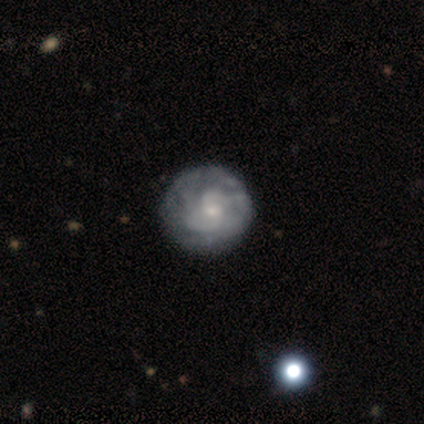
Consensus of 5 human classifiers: smooth-or-featured: featured or disk: 80% | star or artifact: 20% | smooth: 0%
  disk-edge-on: no: 100% | yes: 0%
    bar: weak: 50% (tied) | no: 50% (tied) | strong: 0%
    has-spiral-arms: yes: 75% | no: 25%
      spiral-winding: tight: 67% | medium: 33% | loose: 0%
      spiral-arm-count: 2: 33% (tied) | 4: 33% (tied) | can't tell: 33% (tied) | 1: 0% | 3: 0% | more than 4: 0%
    bulge-size: moderate: 50% (tied) | small: 50% (tied) | dominant: 0% | large: 0% | none: 0%
  merging: none: 50% | minor disturbance: 25% | merger: 25% | major disturbance: 0%